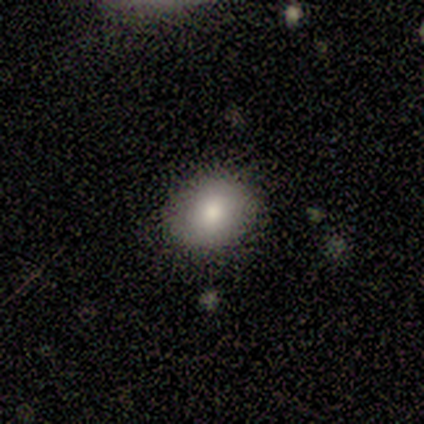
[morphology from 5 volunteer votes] This appears to be a smooth galaxy with no disk features (100%) that is in between round and cigar-shaped (100%). Merging: none (80%).